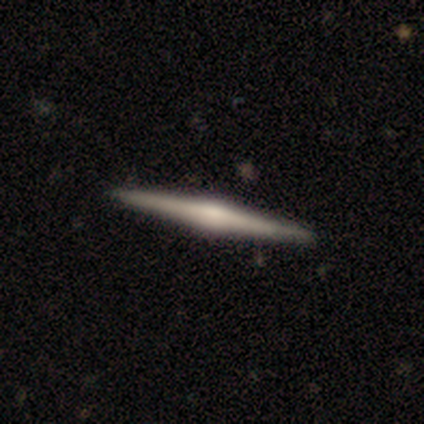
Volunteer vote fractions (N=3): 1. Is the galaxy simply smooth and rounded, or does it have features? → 67% featured or disk, 33% star or artifact, 0% smooth.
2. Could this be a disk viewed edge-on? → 100% yes, 0% no.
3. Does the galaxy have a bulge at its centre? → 100% rounded, 0% boxy, 0% none.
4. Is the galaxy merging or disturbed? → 100% none, 0% minor disturbance, 0% major disturbance, 0% merger.